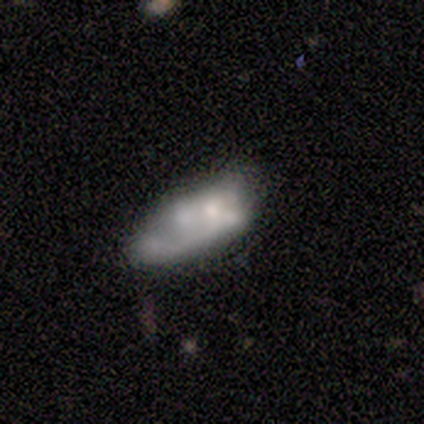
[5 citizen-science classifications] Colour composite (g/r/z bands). It shows a featured or disk galaxy (60%) with no bar (100%), no spiral arms (100%) and a moderate central bulge (33%, tied with small and none). Merging: minor disturbance (40%).